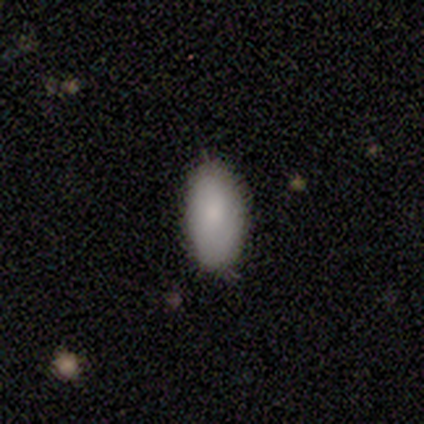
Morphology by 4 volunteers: type=smooth (75%); roundness=in between (100%); merging=none (100%).